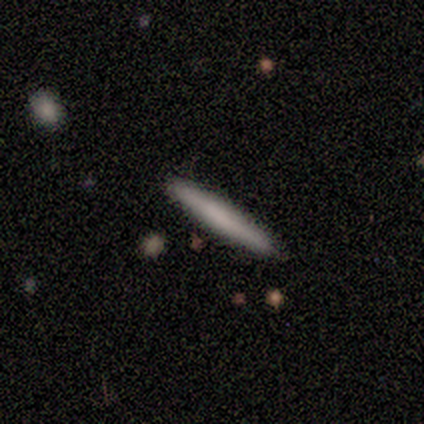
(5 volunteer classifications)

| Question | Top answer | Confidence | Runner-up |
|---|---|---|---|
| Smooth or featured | smooth | 80% | featured or disk (20%) |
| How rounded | cigar-shaped | 100% | — |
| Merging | none | 100% | — |